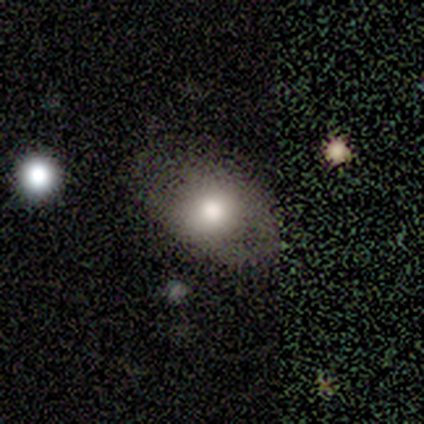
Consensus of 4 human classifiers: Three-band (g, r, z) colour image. It shows a featured or disk galaxy (75%) with no bar (100%), no spiral arms (67%) and a large central bulge (67%). Merging: none (50%).